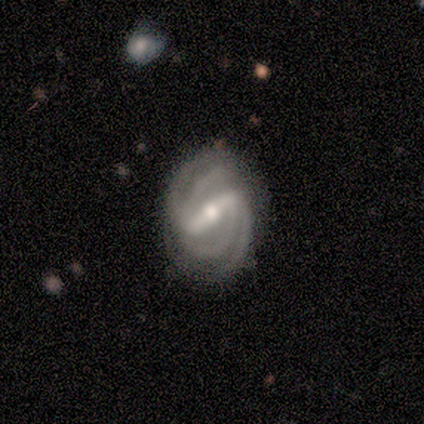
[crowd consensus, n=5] Volunteers were most divided on "spiral winding": medium: 75%, tight: 25%, loose: 0%. More confident: edge-on disk — no (100%); bar — strong (100%); spiral arms — yes (100%); merging — none (100%); smooth or featured — featured or disk (80%); spiral arm count — 4 (75%); bulge size — small (75%).